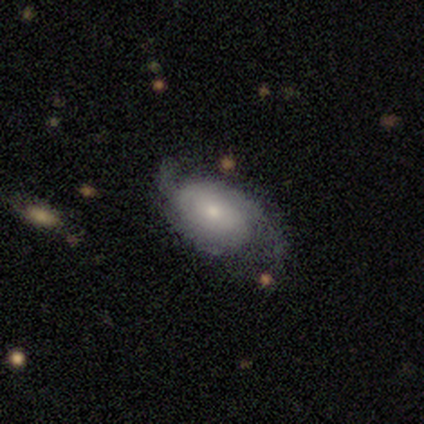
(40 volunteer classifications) Smooth or featured? 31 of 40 (78%) said featured or disk. Edge-on disk? 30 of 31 (97%) said no. Bar? 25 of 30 (83%) said no. Spiral arms? 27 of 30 (90%) said yes. Spiral winding? 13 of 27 (48%) said loose. Spiral arm count? 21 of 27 (78%) said 2. Bulge size? 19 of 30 (63%) said small. Merging? 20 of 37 (54%) said none.